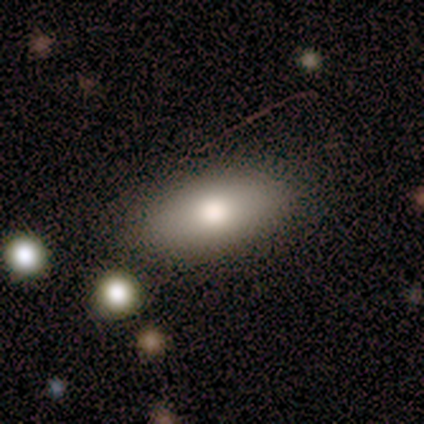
Morphology: type=featured or disk (60%); edge-on=no (67%); bar=no (100%); spiral arms=no (100%); bulge=large (50%, tied with moderate); merging=none (100%).